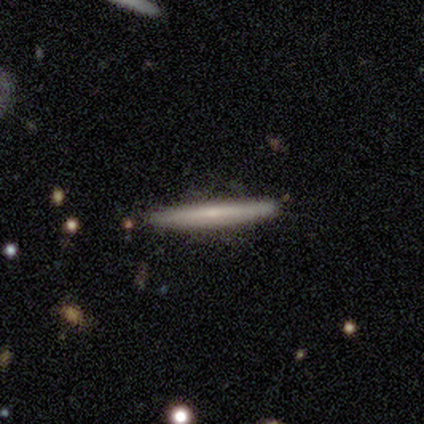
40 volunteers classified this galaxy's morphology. Smooth or featured: featured or disk — 62% (smooth — 35%)
Edge-on disk: yes — 100%
Edge-on bulge: none — 72% (rounded — 20%)
Merging: none — 95% (minor disturbance — 3%)